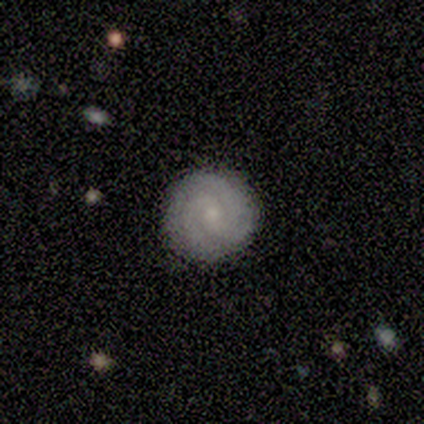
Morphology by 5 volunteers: Smooth or featured? featured or disk (80%)
Edge-on disk? no (100%)
Bar? weak (50%)
Spiral arms? yes (100%)
Spiral winding? tight (75%)
Spiral arm count? 3 (100%)
Bulge size? small (100%)
Merging? none (100%)